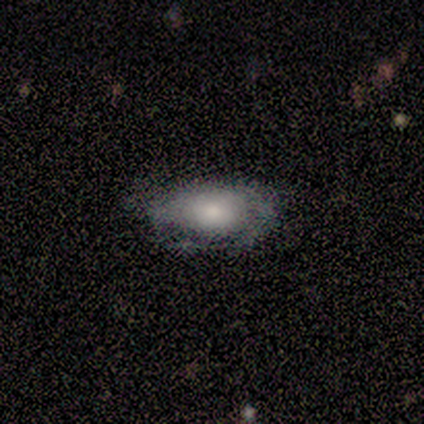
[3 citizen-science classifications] Overall: smooth (100%). How rounded: in between (100%). Merging: none (100%).